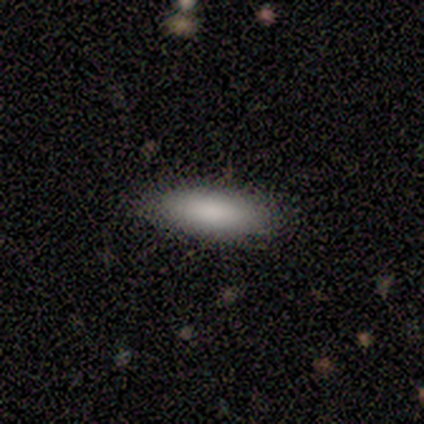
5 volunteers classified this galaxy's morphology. This is clearly a smooth galaxy (100%). How rounded: likely in between (60%). Merging: clearly none (80%).